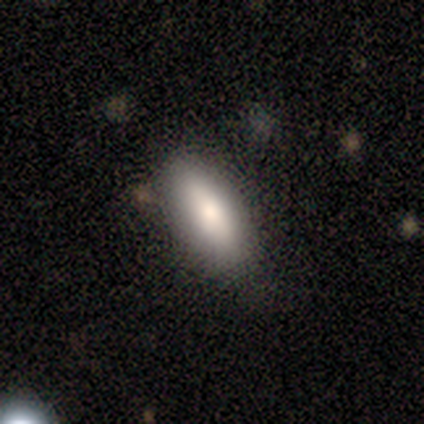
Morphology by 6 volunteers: Smooth or featured?
  - smooth: 50% * (tied)
  - star or artifact: 50% * (tied)
  - featured or disk: 0%
How rounded?
  - in between: 100% *
  - round: 0%
  - cigar-shaped: 0%
Merging?
  - none: 100% *
  - minor disturbance: 0%
  - major disturbance: 0%
  - merger: 0%